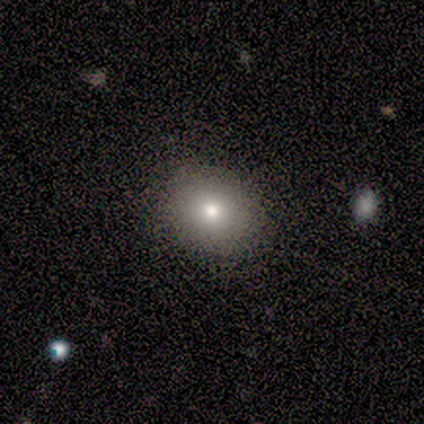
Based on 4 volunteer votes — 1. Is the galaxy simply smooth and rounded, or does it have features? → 75% smooth, 25% star or artifact, 0% featured or disk.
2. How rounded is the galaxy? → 67% in between, 33% round, 0% cigar-shaped.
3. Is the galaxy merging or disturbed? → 67% none, 33% minor disturbance, 0% major disturbance, 0% merger.